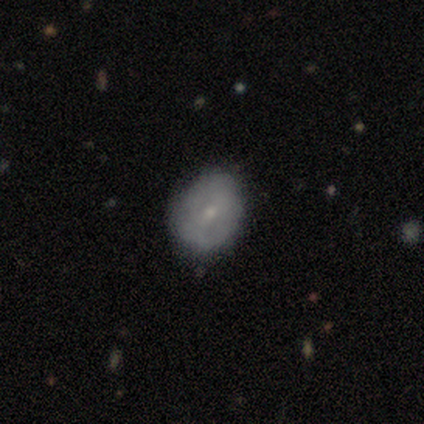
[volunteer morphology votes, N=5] This is likely a featured or disk galaxy (60%). It is clearly not viewed edge-on (100%). Bar: likely weak (67%). Spiral arm pattern: likely no (67%). Central bulge: clearly small (100%). Merging: likely none (75%).